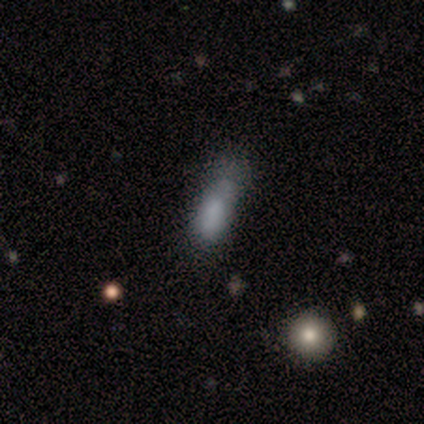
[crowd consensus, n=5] Smooth or featured? 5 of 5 (100%) said smooth. How rounded? 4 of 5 (80%) said in between. Merging? 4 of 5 (80%) said none.